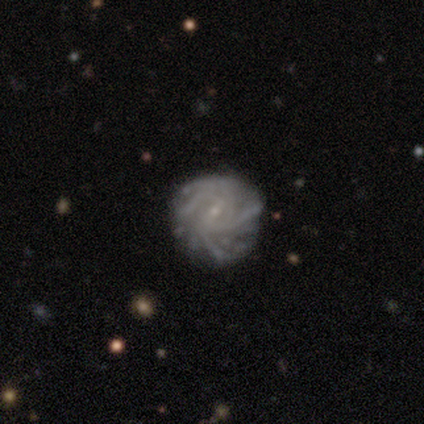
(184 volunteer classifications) featured or disk 89%, smooth 8%, star or artifact 3%. Down the decision tree: edge-on disk — no (98%); bar — weak (52%); spiral arms — yes (93%); spiral arm count — more than 4 (35%); spiral winding — tight (65%); bulge size — small (86%); merging — none (67%).